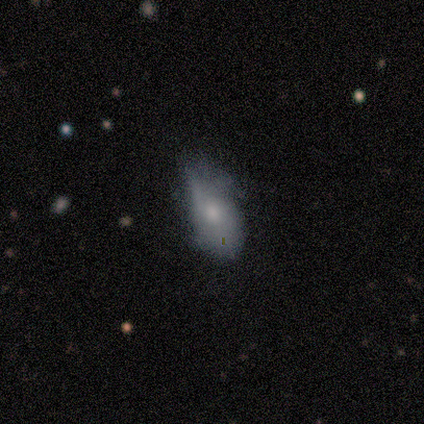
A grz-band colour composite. It shows a featured or disk galaxy (60%) with no bar (67%), no spiral arms (100%) and a moderate central bulge (67%). Merging: none (80%).